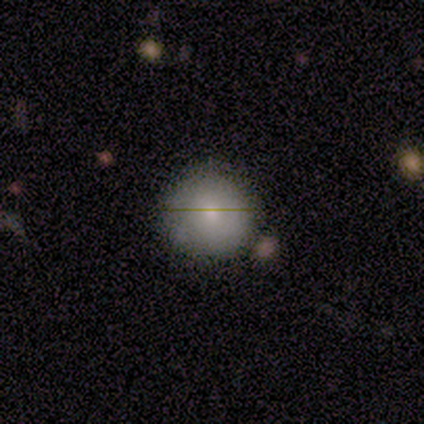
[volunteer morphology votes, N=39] type=smooth (59%); roundness=round (91%); merging=none (77%).